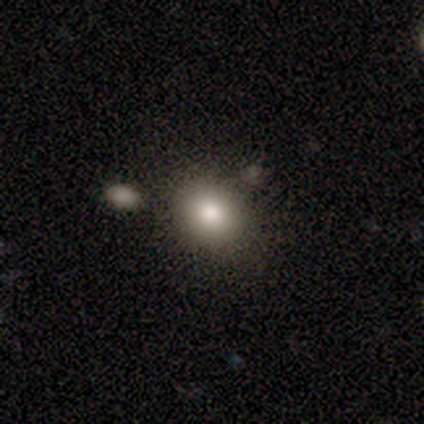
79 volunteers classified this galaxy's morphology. Smooth or featured? 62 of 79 (78%) said smooth. How rounded? 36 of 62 (58%) said round. Merging? 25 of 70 (36%) said none.